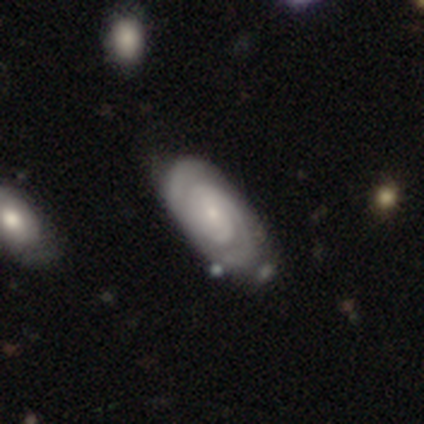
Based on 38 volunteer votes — This is clearly a featured or disk galaxy (95%). It is clearly not viewed edge-on (94%). Bar: possibly no (59%). Spiral arm pattern: clearly yes (100%). Spiral arm count: likely 2 (65%). Spiral winding: clearly tight (85%). Central bulge: likely small (65%). Merging: possibly none (46%).